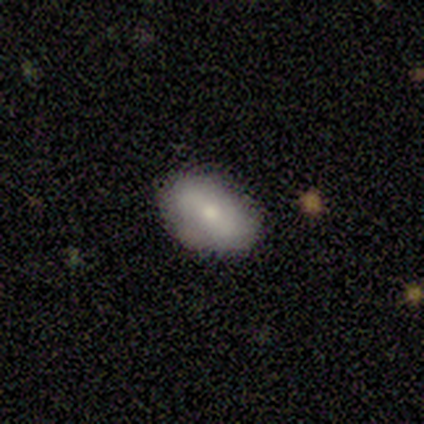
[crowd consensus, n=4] Volunteers were most divided on "merging" (2-way tie): none: 50%, minor disturbance: 50%, major disturbance: 0%, merger: 0%. More confident: how rounded — in between (100%); smooth or featured — smooth (75%).